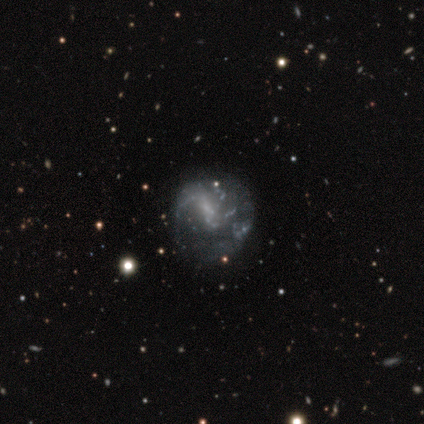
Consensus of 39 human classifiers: A featured or disk galaxy (64%) with no bar (50%), 1 (38%) loose (46%) spiral arms (54%) and no central bulge (50%). Merging: none (53%).